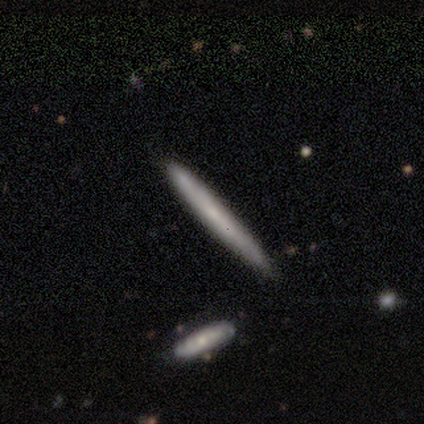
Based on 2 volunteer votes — A smooth galaxy with no disk features (50%, tied with featured or disk) that is cigar-shaped (100%).

Vote fractions:
- Smooth or featured? smooth: 50% (tied) / featured or disk: 50% (tied) / star or artifact: 0%
- How rounded? cigar-shaped: 100% / round: 0% / in between: 0%
- Merging? none: 50% (tied) / minor disturbance: 50% (tied) / major disturbance: 0% / merger: 0%